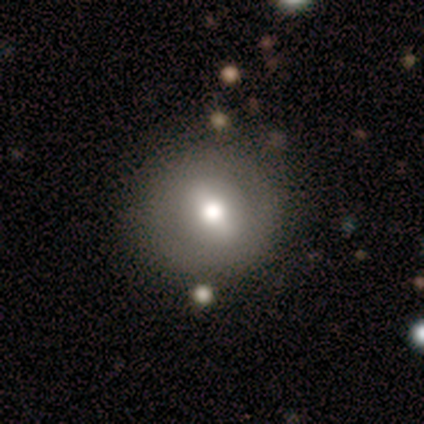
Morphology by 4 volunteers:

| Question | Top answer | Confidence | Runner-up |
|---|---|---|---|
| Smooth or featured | smooth | 50% | tied: featured or disk (50%) |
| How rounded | round | 100% | — |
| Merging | none | 100% | — |